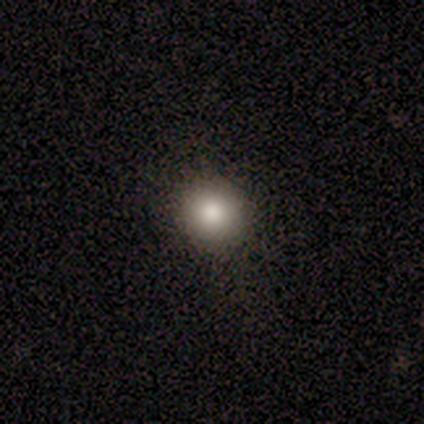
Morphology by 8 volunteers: Smooth or featured: smooth — 88% (star or artifact — 12%)
How rounded: round — 100%
Merging: none — 86% (minor disturbance — 14%)